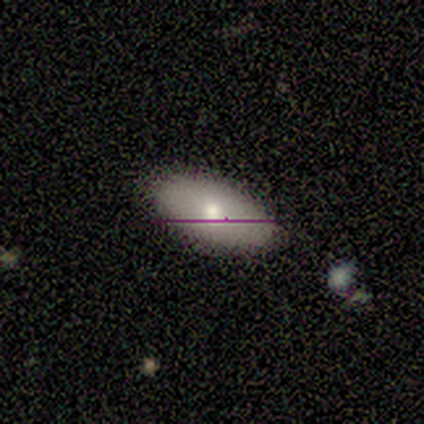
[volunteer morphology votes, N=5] smooth_or_featured: smooth (p=0.40) [tied with: featured or disk p=0.40]
how_rounded: in between (p=1.00)
merging: none (p=1.00)